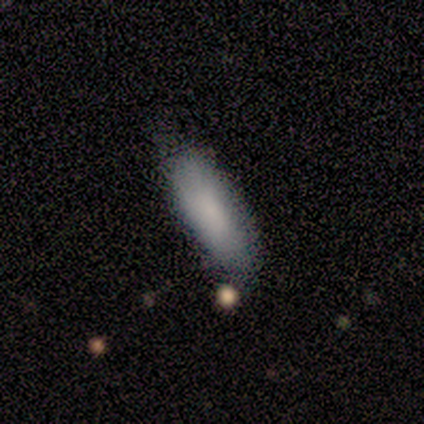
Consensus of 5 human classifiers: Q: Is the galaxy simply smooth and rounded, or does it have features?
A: smooth — 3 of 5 (60%).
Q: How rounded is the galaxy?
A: cigar-shaped — 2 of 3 (67%).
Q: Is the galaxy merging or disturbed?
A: none — 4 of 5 (80%).